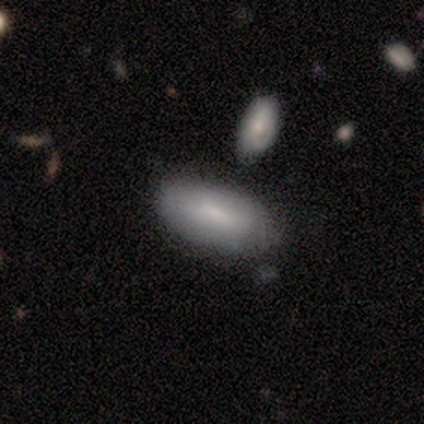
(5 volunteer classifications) Smooth or featured: smooth — 80% (featured or disk — 20%)
How rounded: in between — 50% (tied with cigar-shaped — 50%)
Merging: none — 40% (tied with minor disturbance — 40%)